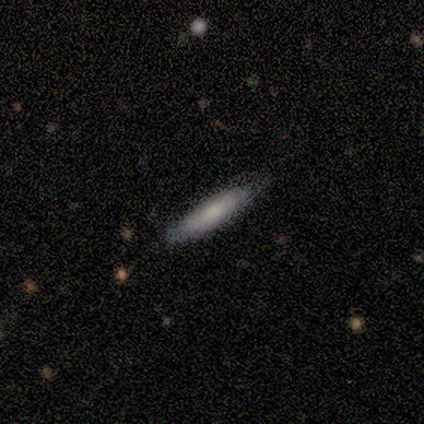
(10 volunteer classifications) Q: Smooth or featured?
A: smooth (70%); runner-up: featured or disk (30%)
Q: How rounded?
A: cigar-shaped (86%); runner-up: in between (14%)
Q: Merging?
A: none (100%)